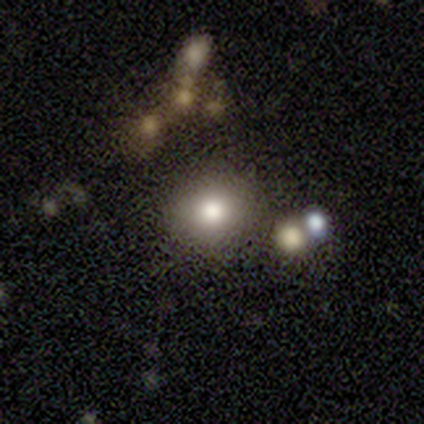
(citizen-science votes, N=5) A smooth galaxy with no disk features (80%) that is round (100%).

Vote fractions:
- Smooth or featured? smooth: 80% / star or artifact: 20% / featured or disk: 0%
- How rounded? round: 100% / in between: 0% / cigar-shaped: 0%
- Merging? none: 100% / minor disturbance: 0% / major disturbance: 0% / merger: 0%